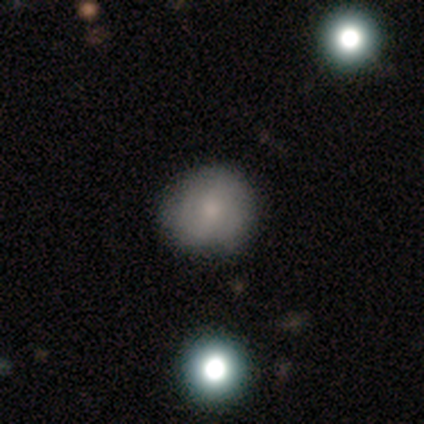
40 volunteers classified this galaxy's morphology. This is likely a smooth galaxy (60%). How rounded: clearly round (88%). Merging: likely none (78%).